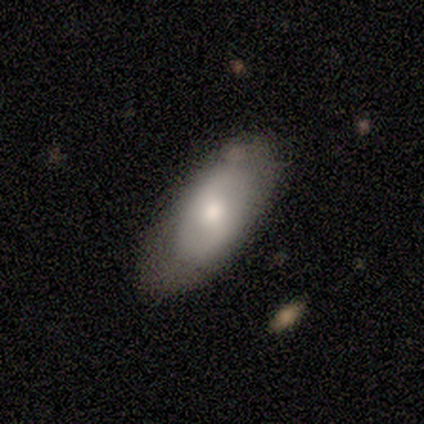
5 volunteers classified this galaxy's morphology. Smooth or featured? 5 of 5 (100%) said smooth. How rounded? 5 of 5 (100%) said in between. Merging? 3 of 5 (60%) said none.